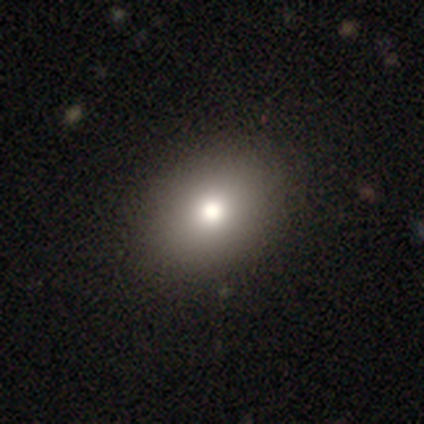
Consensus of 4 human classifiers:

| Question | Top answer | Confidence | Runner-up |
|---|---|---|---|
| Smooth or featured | smooth | 100% | — |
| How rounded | in between | 75% | round (25%) |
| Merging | none | 100% | — |